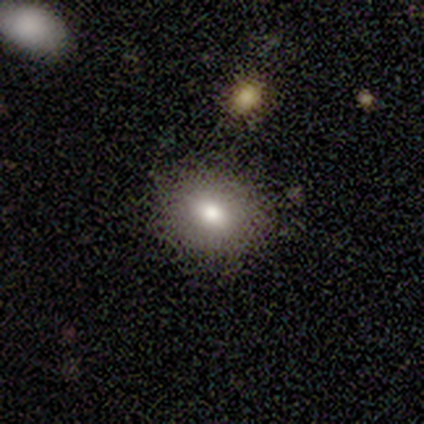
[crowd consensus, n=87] A smooth galaxy with no disk features (71%) that is round (60%). Merging: none (77%).